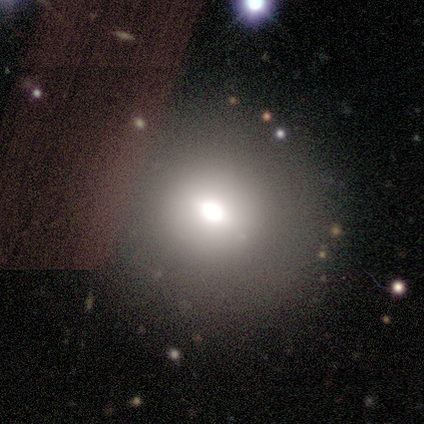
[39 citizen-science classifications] This appears to be a smooth galaxy with no disk features (82%) that is round (78%). Merging: none (94%).